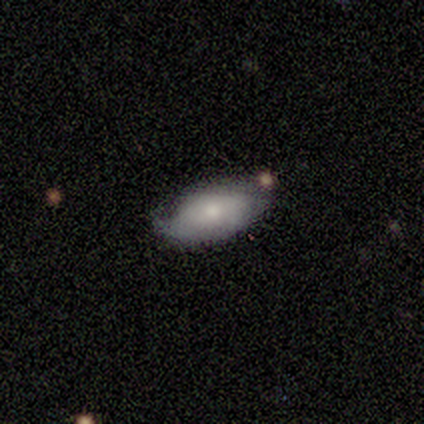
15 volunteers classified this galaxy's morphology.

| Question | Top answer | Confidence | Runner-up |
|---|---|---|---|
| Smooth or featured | smooth | 73% | featured or disk (27%) |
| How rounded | in between | 91% | cigar-shaped (9%) |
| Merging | minor disturbance | 60% | none (33%) |